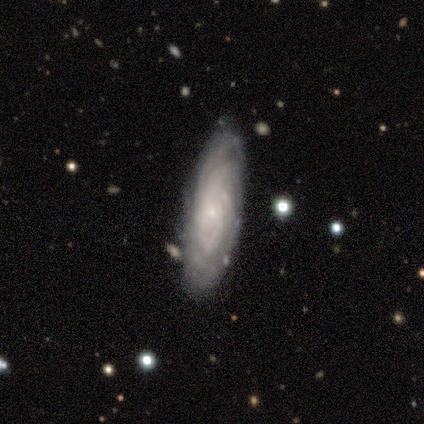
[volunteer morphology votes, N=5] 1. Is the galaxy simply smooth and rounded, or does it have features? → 100% featured or disk, 0% smooth, 0% star or artifact.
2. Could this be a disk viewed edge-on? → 80% no, 20% yes.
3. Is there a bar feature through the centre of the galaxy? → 75% no, 25% weak, 0% strong.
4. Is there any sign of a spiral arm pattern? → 100% yes, 0% no.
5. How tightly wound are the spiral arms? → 100% tight, 0% medium, 0% loose.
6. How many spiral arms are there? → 75% can't tell, 25% more than 4, 0% 1, 0% 2, 0% 3, 0% 4.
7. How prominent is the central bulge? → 75% small, 25% none, 0% dominant, 0% large, 0% moderate.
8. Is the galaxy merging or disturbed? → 60% none, 40% minor disturbance, 0% major disturbance, 0% merger.